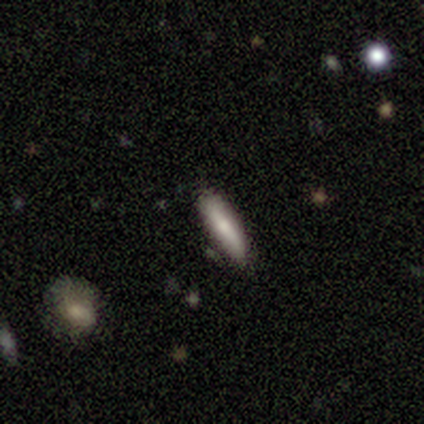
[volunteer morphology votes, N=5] Q: Smooth or featured?
A: smooth (60%); runner-up: featured or disk (40%)
Q: How rounded?
A: in between (67%); runner-up: cigar-shaped (33%)
Q: Merging?
A: none (100%)